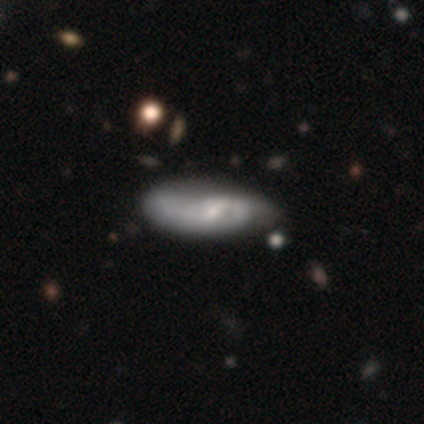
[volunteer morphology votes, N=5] smooth_or_featured: featured or disk (p=0.60) [alt: smooth p=0.20]
disk_edge_on: no (p=1.00)
bar: weak (p=0.67) [alt: no p=0.33]
has_spiral_arms: yes (p=1.00)
spiral_winding: medium (p=0.67) [alt: tight p=0.33]
spiral_arm_count: 2 (p=0.67) [alt: can't tell p=0.33]
bulge_size: small (p=0.67) [alt: moderate p=0.33]
merging: none (p=0.50) [alt: minor disturbance p=0.25]